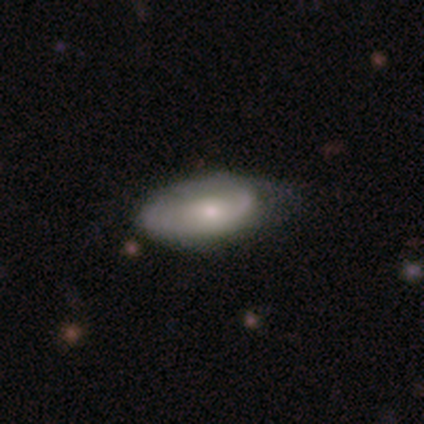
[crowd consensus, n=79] Smooth or featured: smooth — 52% (featured or disk — 44%)
How rounded: in between — 95% (cigar-shaped — 5%)
Merging: none — 25% (tied with minor disturbance — 25%)